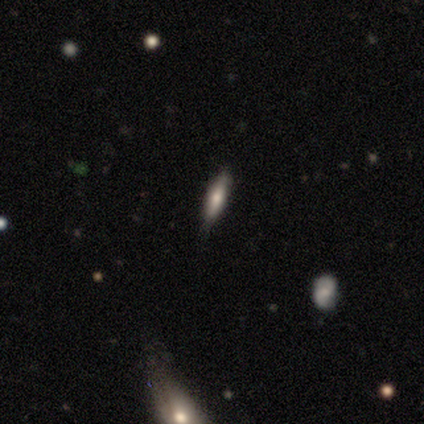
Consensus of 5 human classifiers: smooth 80%, featured or disk 20%, star or artifact 0%. Down the decision tree: how rounded — cigar-shaped (75%); merging — none (60%).